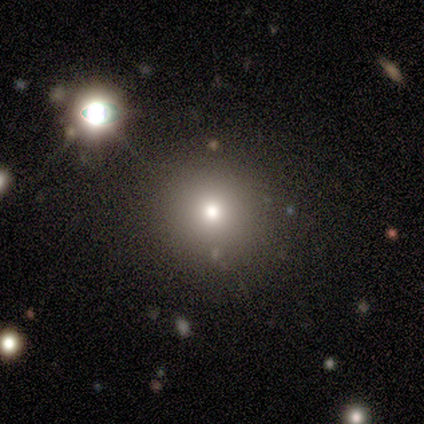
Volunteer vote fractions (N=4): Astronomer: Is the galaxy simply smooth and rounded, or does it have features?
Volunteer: smooth — 75%.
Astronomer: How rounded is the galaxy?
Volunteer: round — 100%.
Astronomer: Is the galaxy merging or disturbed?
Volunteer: none — 100%.